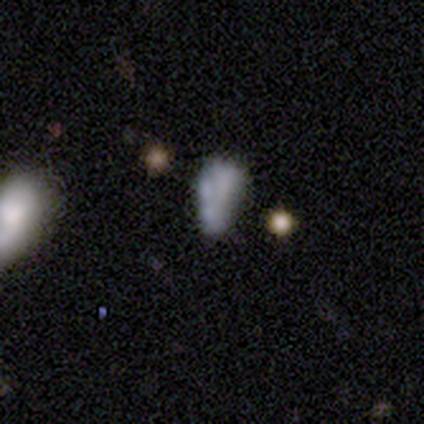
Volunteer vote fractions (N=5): This is likely a featured or disk galaxy (60%). It is clearly not viewed edge-on (100%). Bar: clearly no (100%). Spiral arm pattern: clearly no (100%). Central bulge: likely none (67%). Merging: marginally none (40%, tied with minor disturbance).